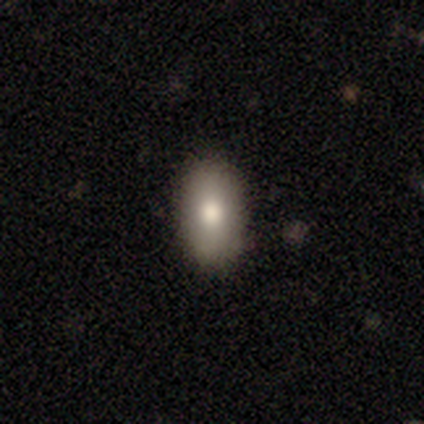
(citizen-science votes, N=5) Overall: smooth (60%; featured or disk 20%). How rounded: in between (67%; round 33%). Merging: none (75%).